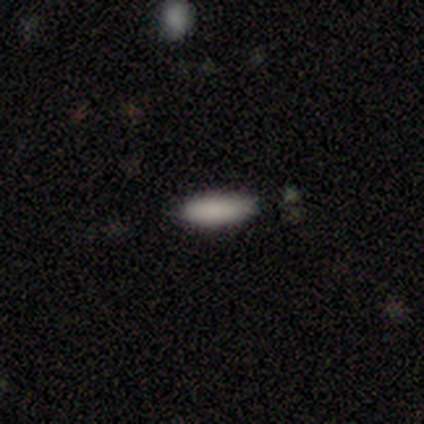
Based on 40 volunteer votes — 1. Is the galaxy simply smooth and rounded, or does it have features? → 92% smooth, 8% featured or disk, 0% star or artifact.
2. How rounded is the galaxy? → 68% in between, 32% cigar-shaped, 0% round.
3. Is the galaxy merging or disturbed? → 50% none, 15% minor disturbance, 5% merger, 0% major disturbance.